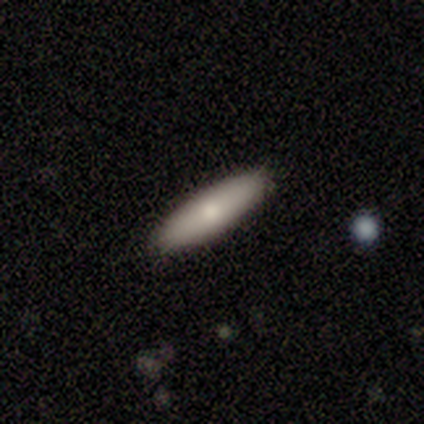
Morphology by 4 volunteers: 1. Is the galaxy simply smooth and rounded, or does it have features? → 75% smooth, 25% featured or disk, 0% star or artifact.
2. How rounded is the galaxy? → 100% cigar-shaped, 0% round, 0% in between.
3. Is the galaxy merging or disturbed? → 100% none, 0% minor disturbance, 0% major disturbance, 0% merger.